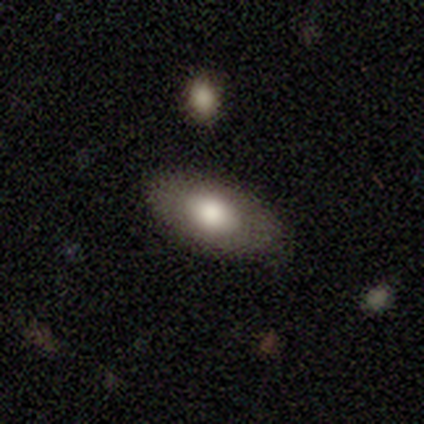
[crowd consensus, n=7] This appears to be a smooth galaxy with no disk features (57%) that is in between round and cigar-shaped (100%). Merging: none (100%).